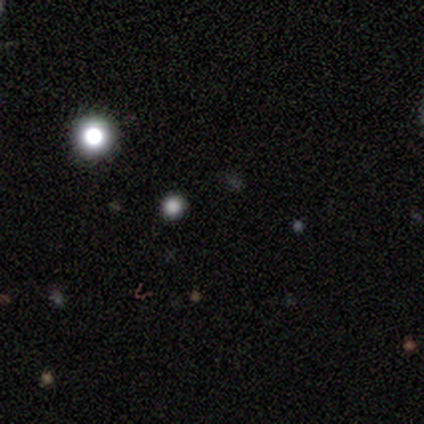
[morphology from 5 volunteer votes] A star or artifact, not a galaxy (100%).